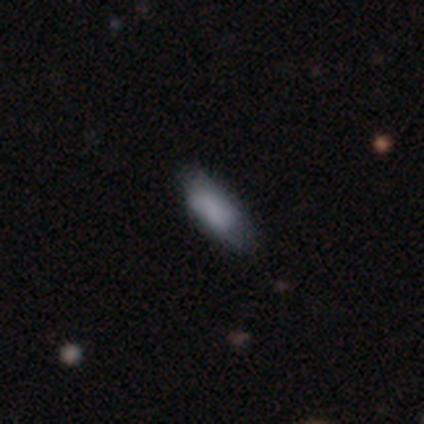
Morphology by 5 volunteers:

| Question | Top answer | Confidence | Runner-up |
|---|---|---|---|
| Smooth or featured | smooth | 60% | featured or disk (20%) |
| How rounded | cigar-shaped | 67% | in between (33%) |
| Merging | none | 75% | minor disturbance (25%) |